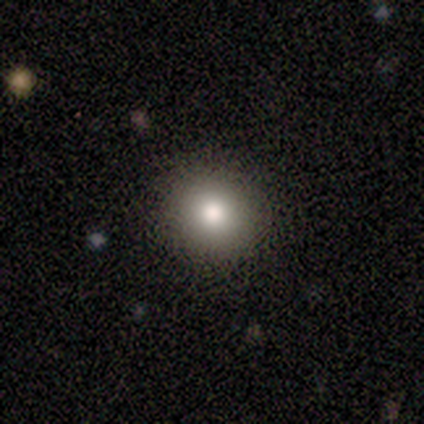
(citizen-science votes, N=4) smooth_or_featured: smooth (p=1.00)
how_rounded: round (p=1.00)
merging: none (p=1.00)